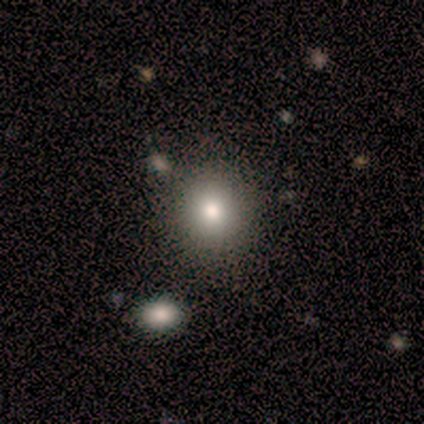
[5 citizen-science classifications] Overall: smooth (60%; star or artifact 40%). How rounded: round (100%). Merging: none (100%).